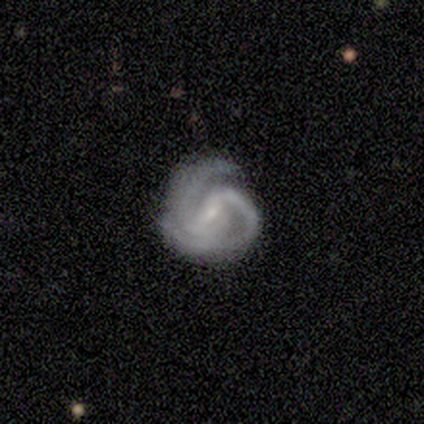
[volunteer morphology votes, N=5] Q: Smooth or featured?
A: featured or disk (80%); runner-up: star or artifact (20%)
Q: Edge-on disk?
A: no (100%)
Q: Bar?
A: strong (50%); tied with: weak (50%)
Q: Spiral arms?
A: yes (100%)
Q: Spiral winding?
A: tight (50%); tied with: medium (50%)
Q: Spiral arm count?
A: 2 (75%); runner-up: can't tell (25%)
Q: Bulge size?
A: small (100%)
Q: Merging?
A: none (75%); runner-up: minor disturbance (25%)